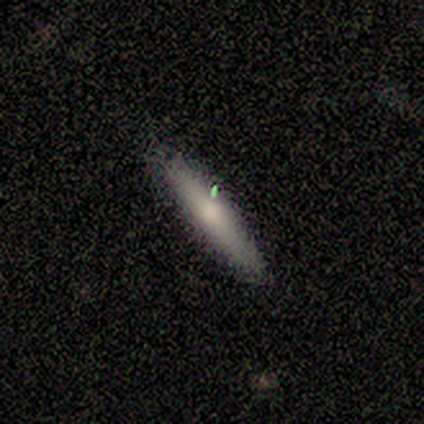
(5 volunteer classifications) Smooth or featured? smooth (80%)
How rounded? cigar-shaped (75%)
Merging? none (80%)